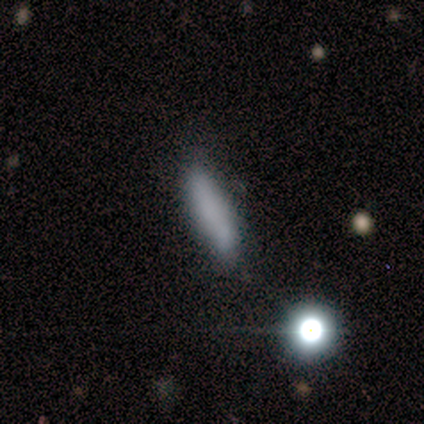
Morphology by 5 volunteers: Smooth or featured?
  - smooth: 60% *
  - star or artifact: 40%
  - featured or disk: 0%
How rounded?
  - cigar-shaped: 100% *
  - round: 0%
  - in between: 0%
Merging?
  - none: 33% * (tied)
  - minor disturbance: 33% * (tied)
  - major disturbance: 33% * (tied)
  - merger: 0%